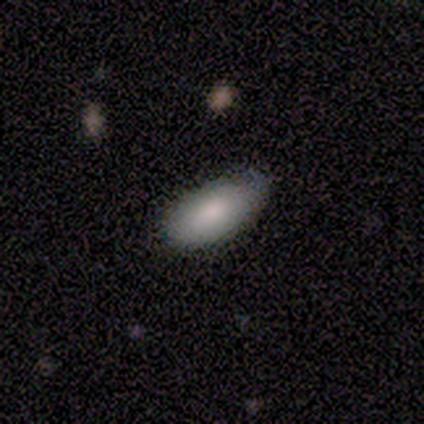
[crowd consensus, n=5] smooth_or_featured: smooth (p=0.60) [alt: featured or disk p=0.40]
how_rounded: in between (p=1.00)
merging: none (p=0.80) [alt: minor disturbance p=0.20]